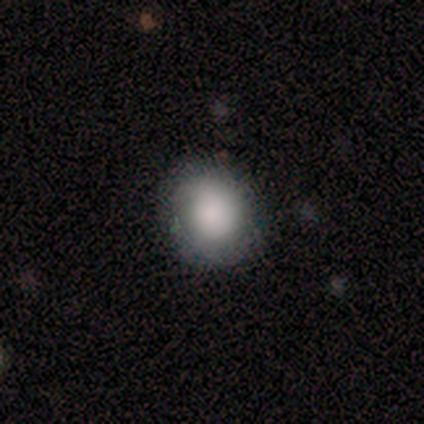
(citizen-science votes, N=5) Volunteers were most divided on "smooth or featured": smooth: 60%, star or artifact: 40%, featured or disk: 0%. More confident: how rounded — round (67%); merging — none (67%).